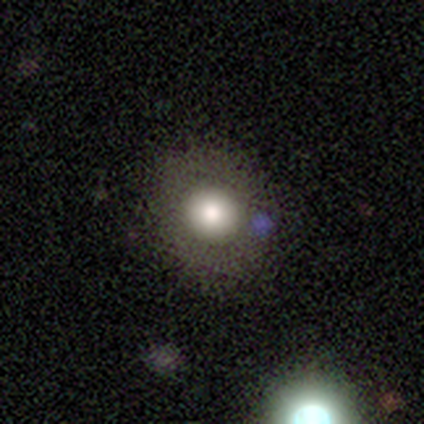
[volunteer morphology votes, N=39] Volunteers were most divided on "smooth or featured": smooth: 67%, star or artifact: 21%, featured or disk: 13%. More confident: how rounded — round (96%); merging — none (90%).